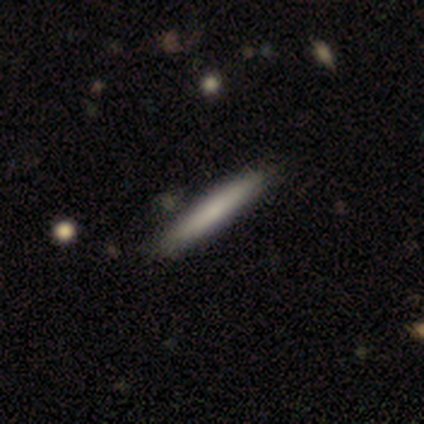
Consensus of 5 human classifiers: This appears to be a smooth galaxy with no disk features (60%) that is cigar-shaped (100%). Merging: none (60%).